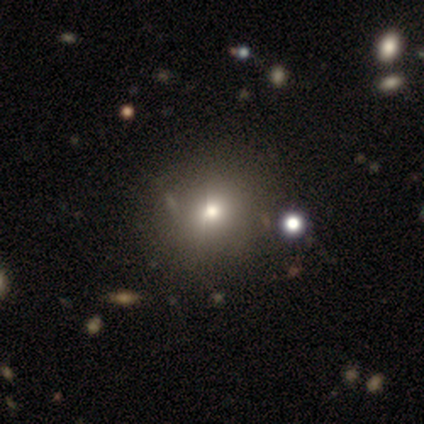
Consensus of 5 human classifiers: Smooth or featured? smooth (60%)
How rounded? round (100%)
Merging? none (60%)